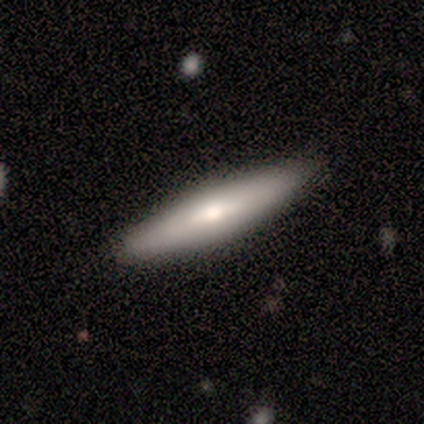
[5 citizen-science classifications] Morphology: type=featured or disk (60%); edge-on=yes (100%); edge-on bulge=rounded (100%); merging=none (100%).